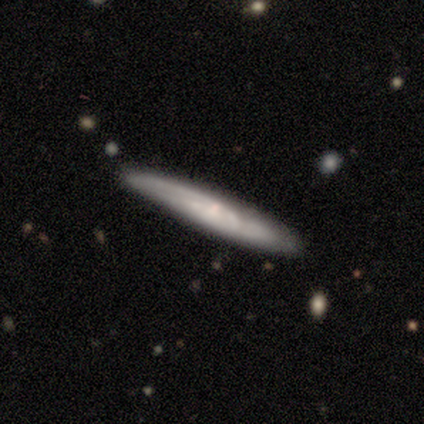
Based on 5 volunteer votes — Volunteers were most divided on "merging": none: 60%, merger: 40%, minor disturbance: 0%, major disturbance: 0%. More confident: edge-on disk — yes (100%); smooth or featured — featured or disk (80%); edge-on bulge — rounded (75%).